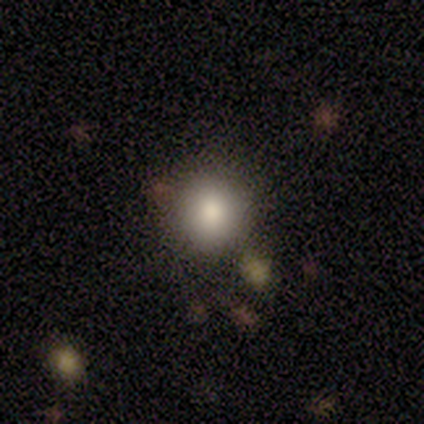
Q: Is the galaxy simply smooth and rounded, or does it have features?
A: smooth — 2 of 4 (50%, tied with featured or disk).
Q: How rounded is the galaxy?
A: round — 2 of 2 (100%).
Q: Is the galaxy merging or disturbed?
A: none — 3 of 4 (75%).